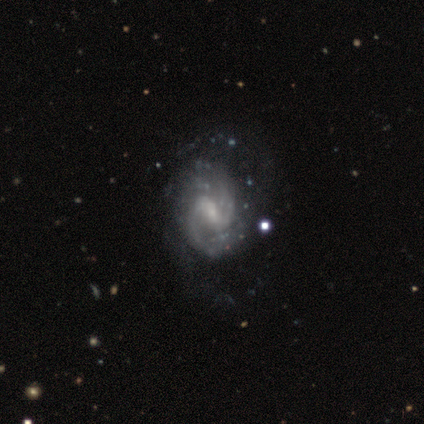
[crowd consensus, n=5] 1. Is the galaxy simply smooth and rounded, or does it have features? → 100% featured or disk, 0% smooth, 0% star or artifact.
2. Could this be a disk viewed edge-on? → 100% no, 0% yes.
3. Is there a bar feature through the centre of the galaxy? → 60% strong, 40% weak, 0% no.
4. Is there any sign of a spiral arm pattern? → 100% yes, 0% no.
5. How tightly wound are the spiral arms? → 60% loose, 20% tight, 20% medium.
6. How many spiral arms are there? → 80% 2, 20% can't tell, 0% 1, 0% 3, 0% 4, 0% more than 4.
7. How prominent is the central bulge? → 60% small, 40% moderate, 0% dominant, 0% large, 0% none.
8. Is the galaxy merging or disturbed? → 60% none, 20% minor disturbance, 20% major disturbance, 0% merger.